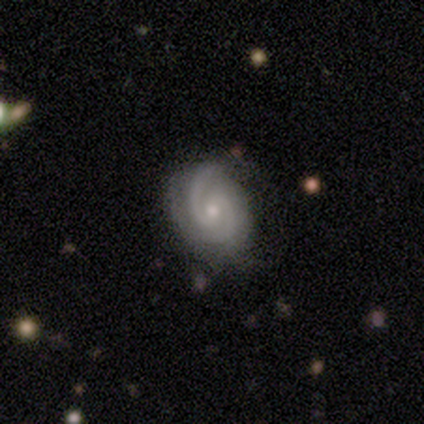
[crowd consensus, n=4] A featured or disk galaxy (75%) with a weak bar (67%), 2 (67%) medium (67%) spiral arms (100%) and a small central bulge (67%).

Vote fractions:
- Smooth or featured? featured or disk: 75% / smooth: 25% / star or artifact: 0%
- Edge-on disk? no: 100% / yes: 0%
- Bar? weak: 67% / no: 33% / strong: 0%
- Spiral arms? yes: 100% / no: 0%
- Spiral winding? medium: 67% / tight: 33% / loose: 0%
- Spiral arm count? 2: 67% / 3: 33% / 1: 0% / 4: 0% / more than 4: 0% / can't tell: 0%
- Bulge size? small: 67% / moderate: 33% / dominant: 0% / large: 0% / none: 0%
- Merging? none: 100% / minor disturbance: 0% / major disturbance: 0% / merger: 0%